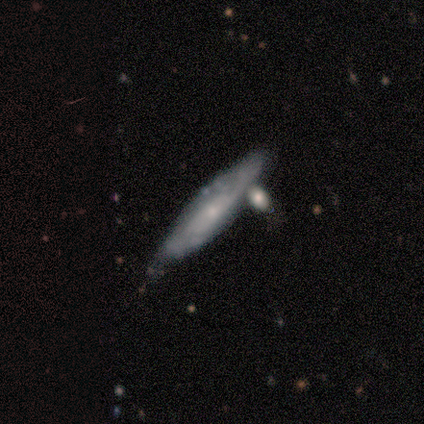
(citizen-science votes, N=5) Smooth or featured? 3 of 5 (60%) said smooth. How rounded? 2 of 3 (67%) said cigar-shaped. Merging? 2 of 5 (40%, tied with minor disturbance) said none.